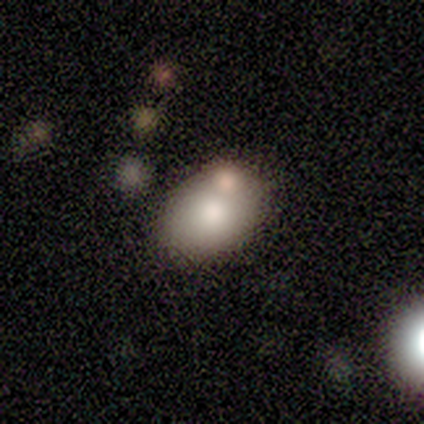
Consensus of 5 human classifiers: A smooth galaxy with no disk features (80%) that is in between round and cigar-shaped (100%).

Vote fractions:
- Smooth or featured? smooth: 80% / featured or disk: 20% / star or artifact: 0%
- How rounded? in between: 100% / round: 0% / cigar-shaped: 0%
- Merging? minor disturbance: 40% (tied) / merger: 40% (tied) / none: 20% / major disturbance: 0%